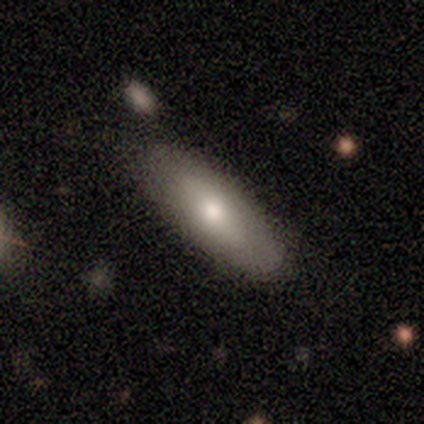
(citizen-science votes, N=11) Volunteers were most divided on "smooth or featured": smooth: 73%, featured or disk: 27%, star or artifact: 0%. More confident: how rounded — in between (100%); merging — none (73%).